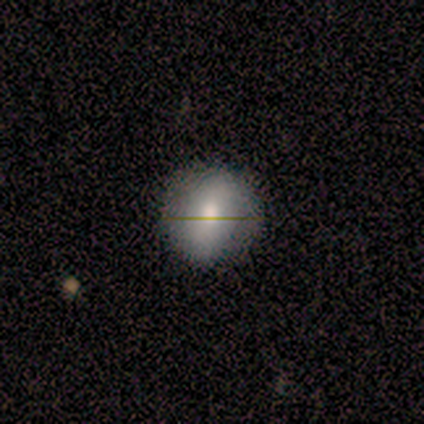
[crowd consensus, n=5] Smooth or featured?
  - smooth: 80% *
  - featured or disk: 20%
  - star or artifact: 0%
How rounded?
  - round: 75% *
  - in between: 25%
  - cigar-shaped: 0%
Merging?
  - none: 100% *
  - minor disturbance: 0%
  - major disturbance: 0%
  - merger: 0%